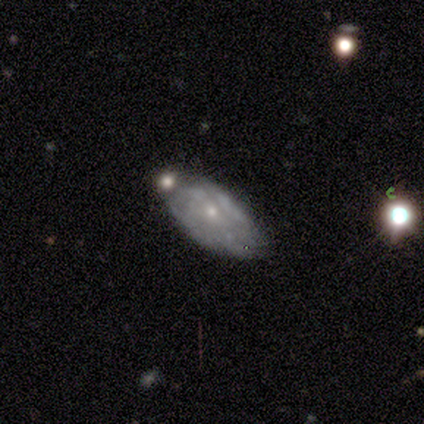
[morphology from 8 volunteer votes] Q: Smooth or featured?
A: featured or disk (50%); runner-up: smooth (38%)
Q: Edge-on disk?
A: no (100%)
Q: Bar?
A: no (100%)
Q: Spiral arms?
A: yes (75%); runner-up: no (25%)
Q: Spiral winding?
A: tight (67%); runner-up: loose (33%)
Q: Spiral arm count?
A: can't tell (100%)
Q: Bulge size?
A: small (75%); runner-up: moderate (25%)
Q: Merging?
A: none (86%); runner-up: minor disturbance (14%)